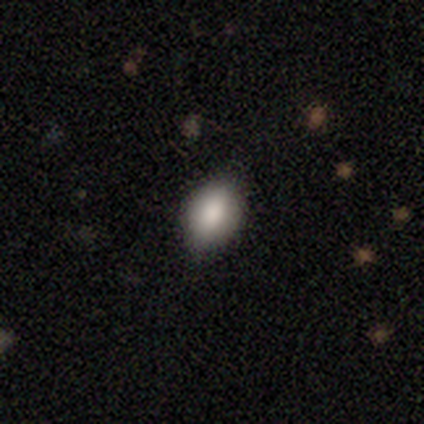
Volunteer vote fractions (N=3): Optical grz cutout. It shows a smooth galaxy with no disk features (67%) that is round (50%, tied with in between). Merging: none (67%).